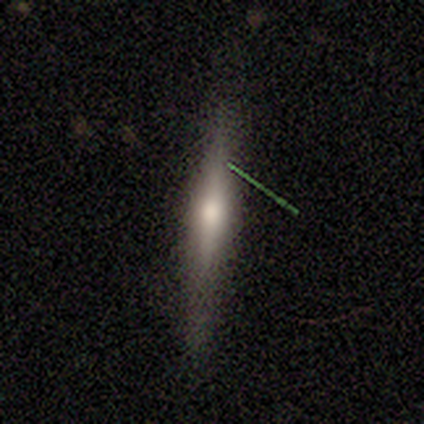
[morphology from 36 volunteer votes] Smooth or featured? 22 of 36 (61%) said featured or disk. Edge-on disk? 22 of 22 (100%) said yes. Edge-on bulge? 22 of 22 (100%) said rounded. Merging? 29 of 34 (85%) said none.